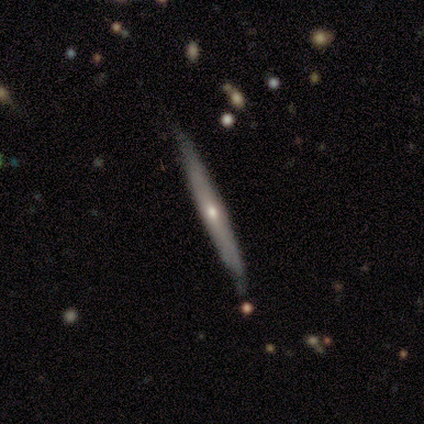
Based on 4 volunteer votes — Smooth or featured? smooth (50%, tied with featured or disk)
How rounded? cigar-shaped (100%)
Merging? none (75%)